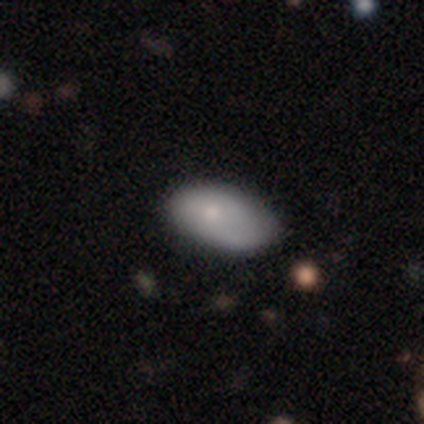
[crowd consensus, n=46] Q: Smooth or featured?
A: smooth (74%); runner-up: featured or disk (17%)
Q: How rounded?
A: in between (94%); runner-up: round (6%)
Q: Merging?
A: none (71%); runner-up: minor disturbance (29%)